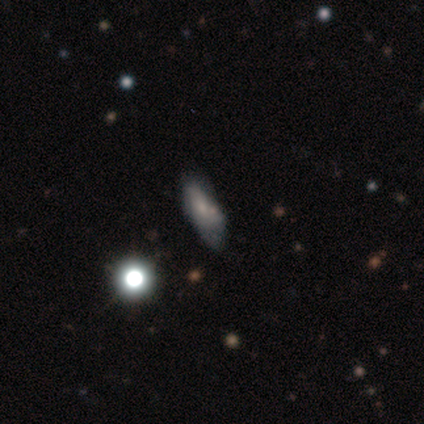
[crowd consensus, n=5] Smooth or featured? smooth (80%)
How rounded? in between (100%)
Merging? none (100%)